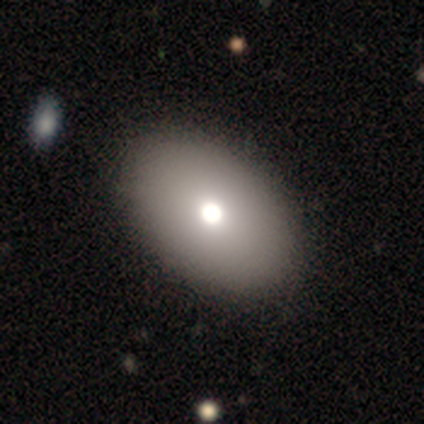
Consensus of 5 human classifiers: Morphology: type=smooth (80%); roundness=in between (100%); merging=none (100%).